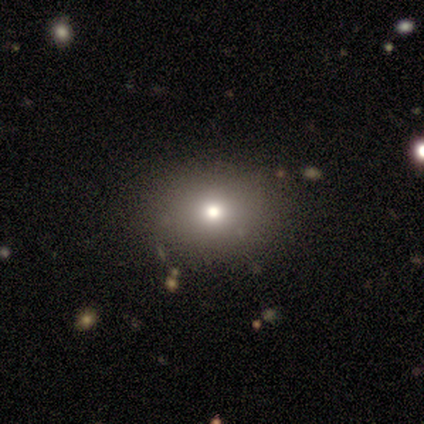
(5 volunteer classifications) Smooth or featured: smooth — 60% (star or artifact — 40%)
How rounded: in between — 67% (round — 33%)
Merging: none — 100%